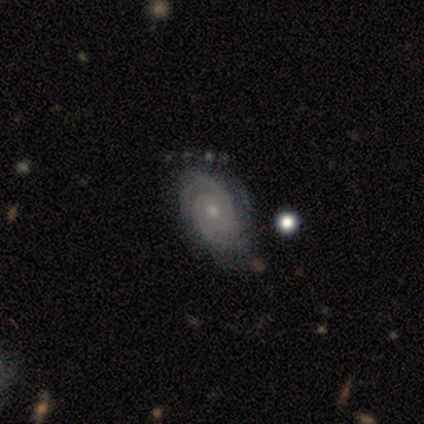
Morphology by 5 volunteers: type=featured or disk (100%); edge-on=no (100%); bar=no (100%); spiral arms=yes (100%); winding=tight (100%); arm count=4 (40%); bulge=small (60%); merging=none (80%).